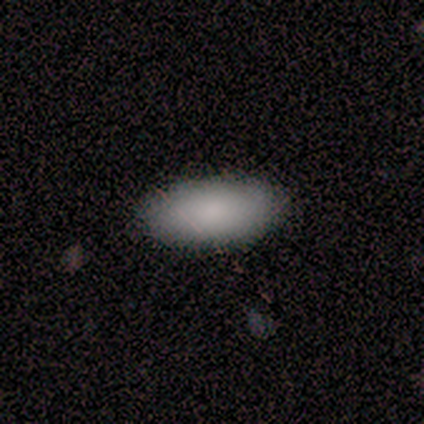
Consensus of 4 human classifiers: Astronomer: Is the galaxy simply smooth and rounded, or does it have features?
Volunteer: smooth — 75%.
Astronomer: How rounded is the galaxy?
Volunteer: in between — 100%.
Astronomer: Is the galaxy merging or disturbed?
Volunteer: none — 100%.